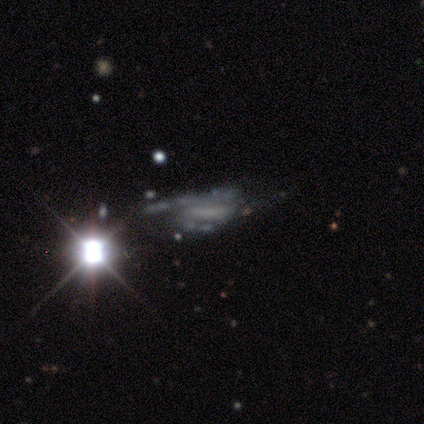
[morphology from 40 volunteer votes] featured or disk 62%, star or artifact 30%, smooth 8%. Down the decision tree: edge-on disk — no (96%); bar — no (46%); spiral arms — yes (75%); spiral arm count — 2 (67%); spiral winding — loose (39%); bulge size — none (75%); merging — none (46%).